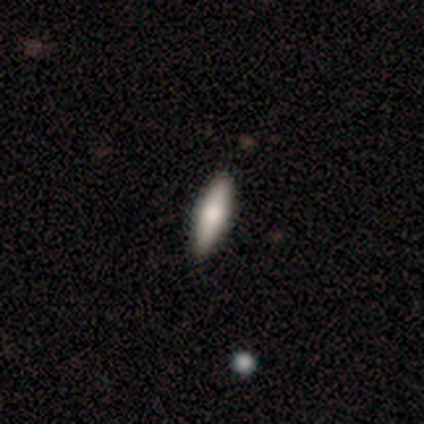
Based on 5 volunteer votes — Volunteers were most divided on "smooth or featured" (2-way tie): smooth: 40%, featured or disk: 40%, star or artifact: 20%; "how rounded" (2-way tie): in between: 50%, cigar-shaped: 50%, round: 0%. More confident: merging — none (100%).